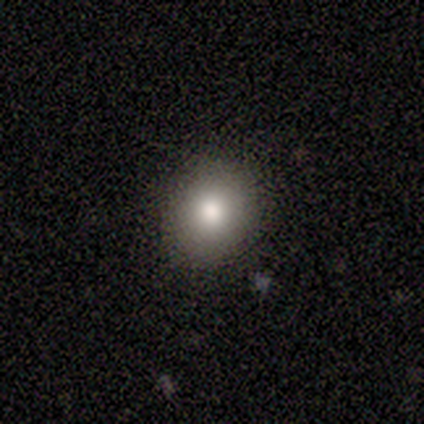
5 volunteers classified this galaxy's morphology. A smooth galaxy with no disk features (80%) that is round (50%, tied with in between). Merging: none (75%).